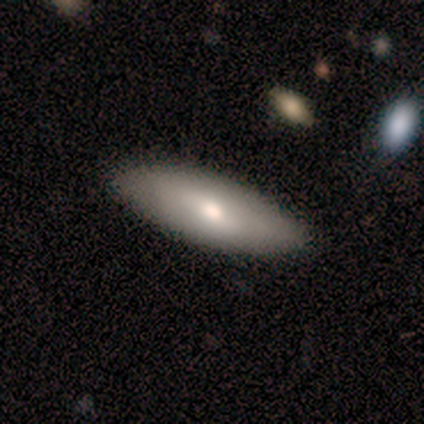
Q: Smooth or featured?
A: smooth (60%); runner-up: featured or disk (40%)
Q: How rounded?
A: in between (100%)
Q: Merging?
A: none (80%); runner-up: minor disturbance (20%)